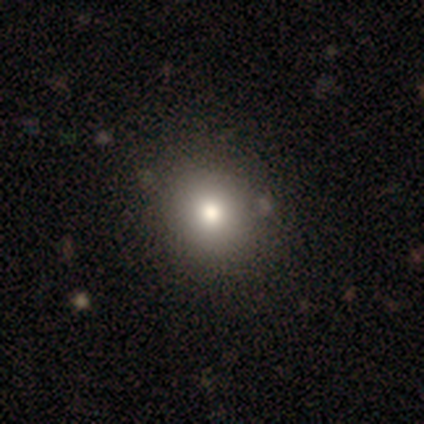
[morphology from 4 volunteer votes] Volunteers were most divided on "smooth or featured" (2-way tie): smooth: 50%, star or artifact: 50%, featured or disk: 0%; "how rounded" (2-way tie): round: 50%, in between: 50%, cigar-shaped: 0%. More confident: merging — none (100%).